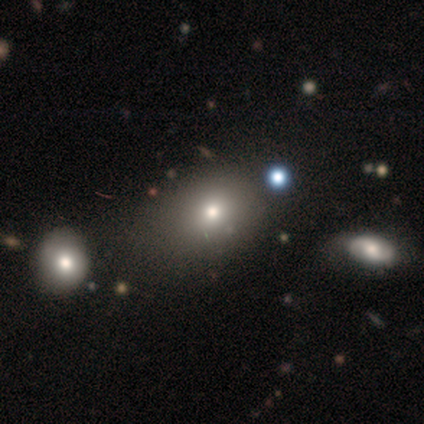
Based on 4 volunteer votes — Smooth or featured? 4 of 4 (100%) said smooth. How rounded? 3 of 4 (75%) said in between. Merging? 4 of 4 (100%) said none.